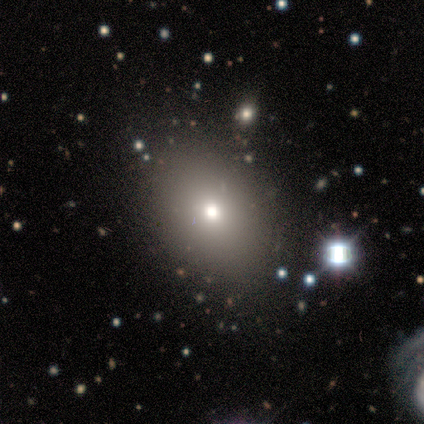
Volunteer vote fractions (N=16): This appears to be a smooth galaxy with no disk features (81%) that is in between round and cigar-shaped (77%). Merging: none (71%).